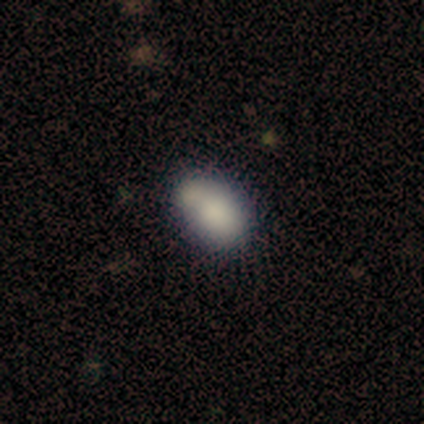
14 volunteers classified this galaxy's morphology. Smooth or featured? 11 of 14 (79%) said smooth. How rounded? 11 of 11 (100%) said in between. Merging? 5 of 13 (38%) said merger.